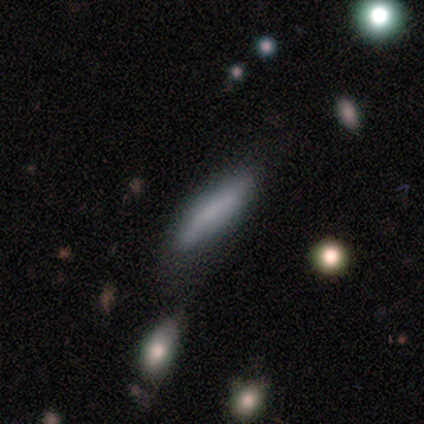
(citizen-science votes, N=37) This appears to be a smooth galaxy with no disk features (78%) that is cigar-shaped (79%). Merging: none (69%).